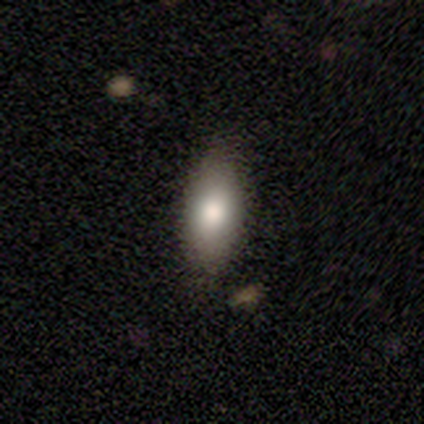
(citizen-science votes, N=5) smooth 100%, featured or disk 0%, star or artifact 0%. Down the decision tree: how rounded — in between (60%); merging — none (80%).